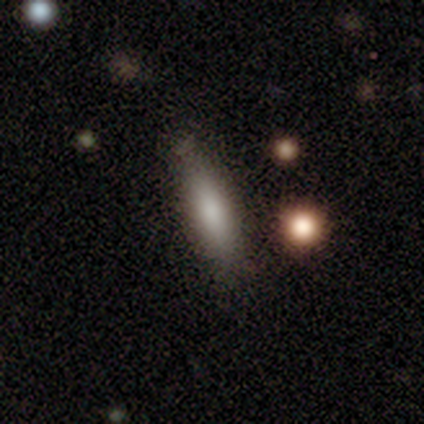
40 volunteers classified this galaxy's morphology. Smooth or featured: smooth — 82% (featured or disk — 12%)
How rounded: cigar-shaped — 73% (in between — 27%)
Merging: none — 50% (minor disturbance — 13%)